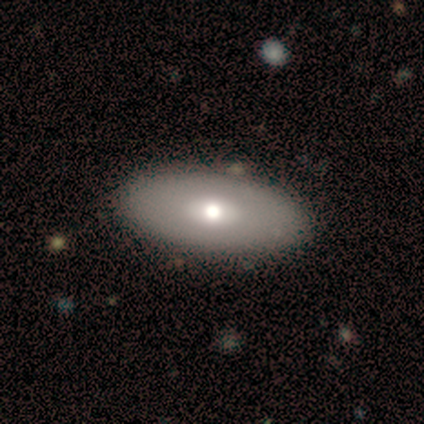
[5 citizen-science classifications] This is likely a smooth galaxy (60%). How rounded: clearly in between (100%). Merging: likely none (75%).